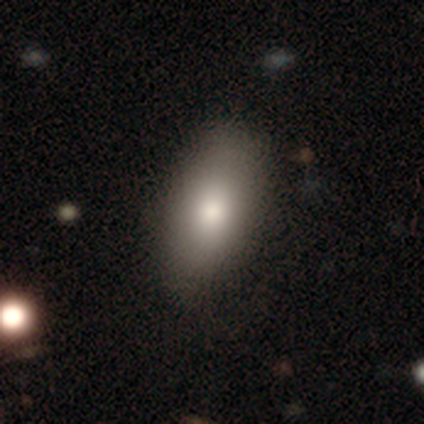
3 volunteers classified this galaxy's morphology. Overall: smooth (67%; star or artifact 33%). How rounded: round (50%, tied with in between). Merging: none (100%).